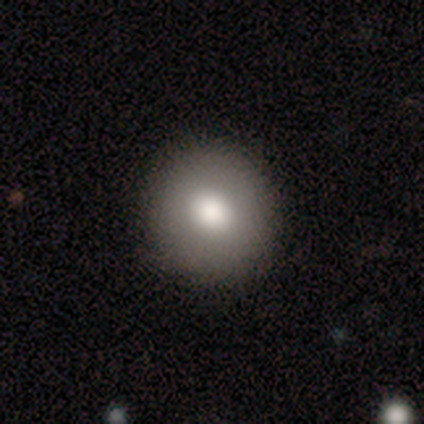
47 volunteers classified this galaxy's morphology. smooth 83%, featured or disk 15%, star or artifact 2%. Down the decision tree: how rounded — round (95%); merging — none (96%).